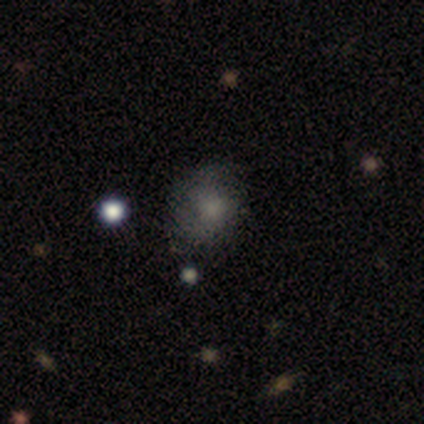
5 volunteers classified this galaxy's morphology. Overall: smooth (100%). How rounded: round (60%; in between 40%). Merging: none (60%; minor disturbance 20%).